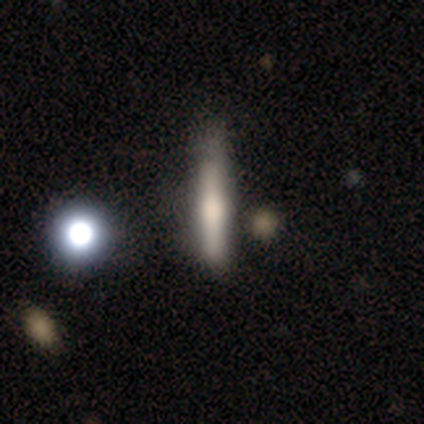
Overall: featured or disk (52%; smooth 38%). Edge-on disk: yes (95%). Edge-on bulge: rounded (65%). Merging: none (58%; minor disturbance 19%).